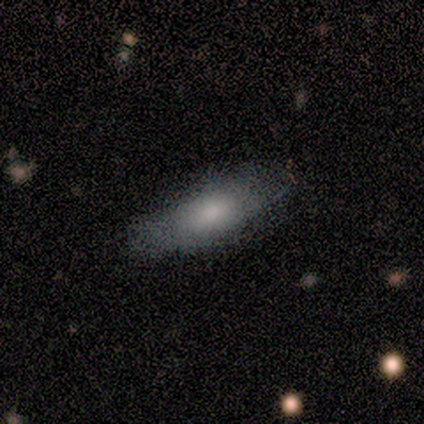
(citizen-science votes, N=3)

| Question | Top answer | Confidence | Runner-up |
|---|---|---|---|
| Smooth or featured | smooth | 67% | featured or disk (33%) |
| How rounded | in between | 100% | — |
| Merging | none | 100% | — |